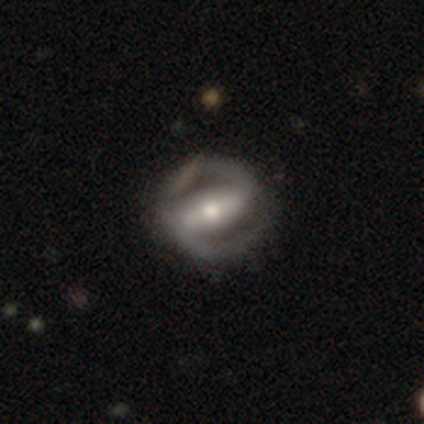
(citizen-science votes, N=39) Smooth or featured: featured or disk — 90% (smooth — 8%)
Edge-on disk: no — 100%
Bar: strong — 77% (weak — 17%)
Spiral arms: yes — 86% (no — 14%)
Spiral winding: tight — 47% (medium — 43%)
Spiral arm count: 2 — 100%
Bulge size: moderate — 66% (small — 20%)
Merging: none — 47% (minor disturbance — 11%)